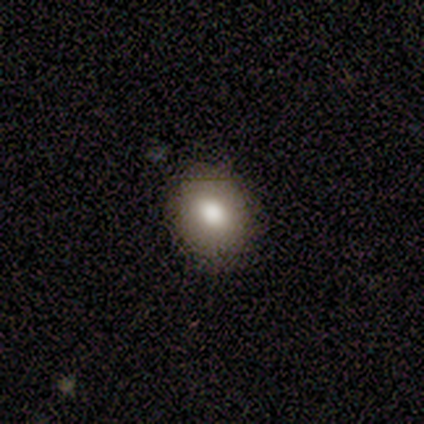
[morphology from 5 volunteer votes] Smooth or featured? smooth (60%)
How rounded? round (100%)
Merging? none (80%)